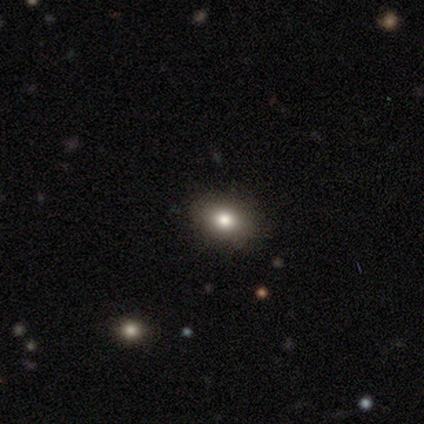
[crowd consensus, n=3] Smooth or featured: star or artifact — 67% (smooth — 33%)